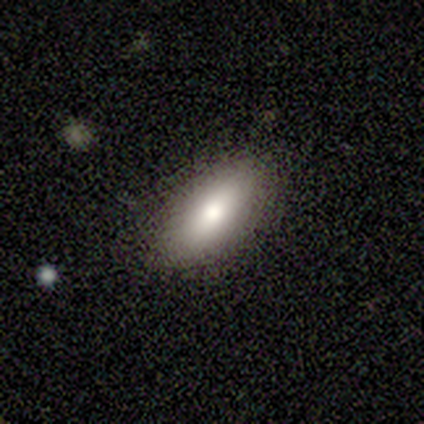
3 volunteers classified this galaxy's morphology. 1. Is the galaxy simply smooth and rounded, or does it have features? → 100% smooth, 0% featured or disk, 0% star or artifact.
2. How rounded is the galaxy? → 67% in between, 33% cigar-shaped, 0% round.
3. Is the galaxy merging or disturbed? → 67% none, 33% minor disturbance, 0% major disturbance, 0% merger.